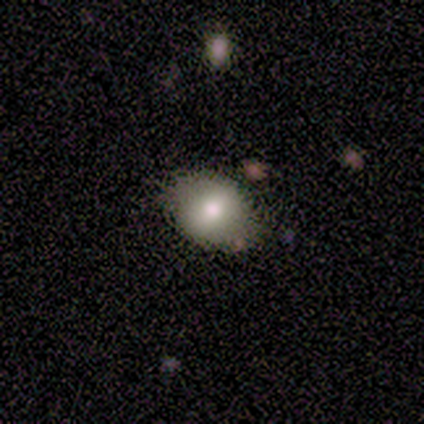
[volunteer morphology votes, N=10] smooth 80%, featured or disk 20%, star or artifact 0%. Down the decision tree: how rounded — in between (62%); merging — none (80%).